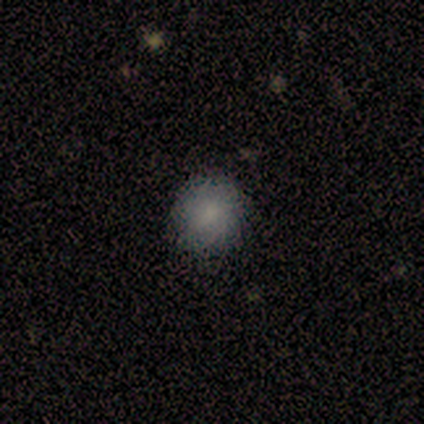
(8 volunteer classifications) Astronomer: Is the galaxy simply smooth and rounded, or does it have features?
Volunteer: smooth — 75%.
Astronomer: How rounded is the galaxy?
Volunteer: round — 83%.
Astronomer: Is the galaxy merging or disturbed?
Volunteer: none — 67%.